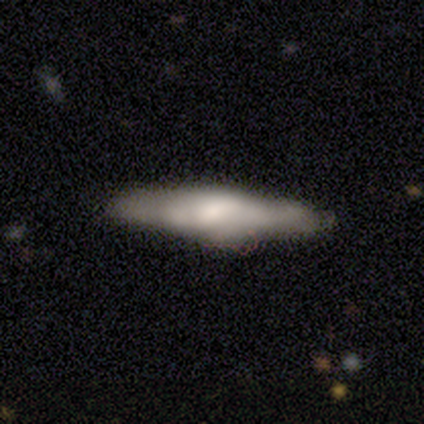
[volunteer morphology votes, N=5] smooth_or_featured: smooth (p=0.60) [alt: featured or disk p=0.40]
how_rounded: cigar-shaped (p=1.00)
merging: none (p=1.00)